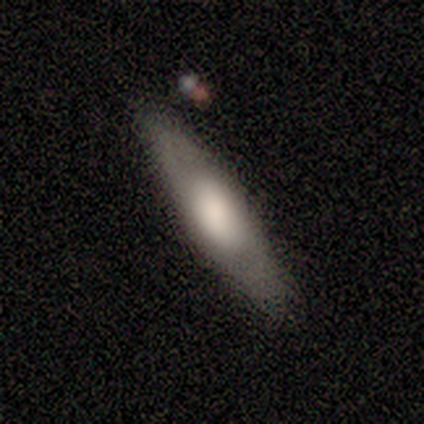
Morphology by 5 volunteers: Q: Smooth or featured?
A: smooth (60%); runner-up: featured or disk (20%)
Q: How rounded?
A: in between (67%); runner-up: cigar-shaped (33%)
Q: Merging?
A: none (75%); runner-up: minor disturbance (25%)